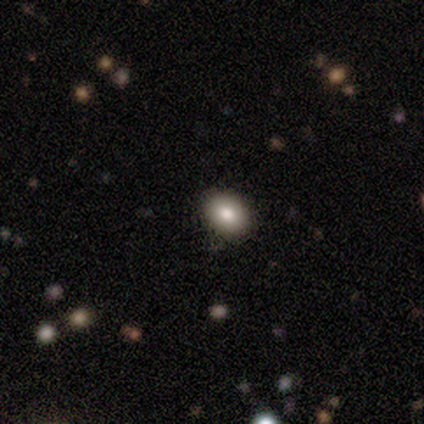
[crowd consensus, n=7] smooth-or-featured: smooth: 71% | featured or disk: 14% | star or artifact: 14%
  how-rounded: in between: 80% | round: 20% | cigar-shaped: 0%
  merging: none: 83% | major disturbance: 17% | minor disturbance: 0% | merger: 0%